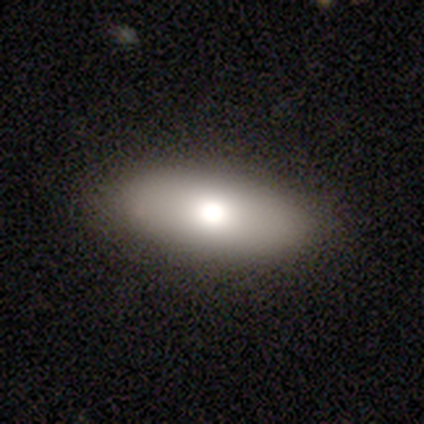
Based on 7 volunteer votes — Q: Smooth or featured?
A: smooth (71%); runner-up: featured or disk (29%)
Q: How rounded?
A: in between (80%); runner-up: round (20%)
Q: Merging?
A: none (86%); runner-up: major disturbance (14%)